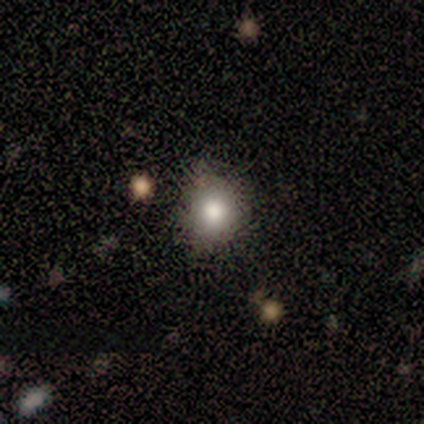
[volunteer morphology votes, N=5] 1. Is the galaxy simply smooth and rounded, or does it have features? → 80% smooth, 20% star or artifact, 0% featured or disk.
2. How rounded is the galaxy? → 100% round, 0% in between, 0% cigar-shaped.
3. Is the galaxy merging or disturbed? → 75% none, 25% minor disturbance, 0% major disturbance, 0% merger.